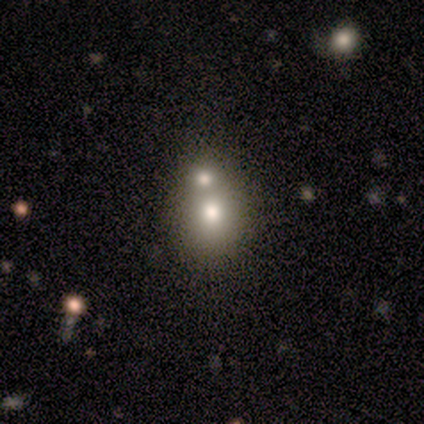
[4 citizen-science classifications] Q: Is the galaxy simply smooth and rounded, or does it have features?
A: smooth — 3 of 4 (75%).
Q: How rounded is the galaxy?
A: round — 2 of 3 (67%).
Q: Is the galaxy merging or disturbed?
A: merger — 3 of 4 (75%).